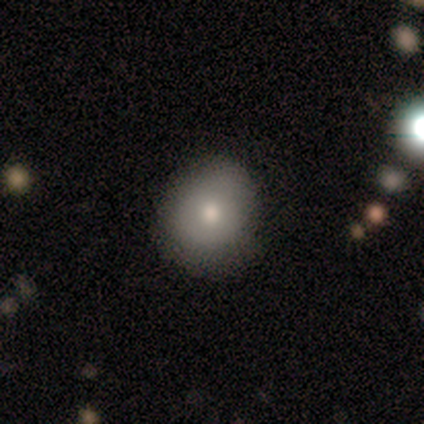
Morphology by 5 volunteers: This appears to be a smooth galaxy with no disk features (80%) that is round (100%). Merging: none (100%).